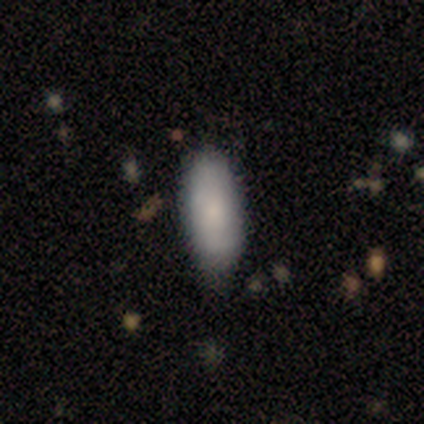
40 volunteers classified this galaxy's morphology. smooth-or-featured: smooth: 80% | featured or disk: 18% | star or artifact: 2%
  how-rounded: in between: 88% | cigar-shaped: 12% | round: 0%
  merging: none: 54% | minor disturbance: 18% | merger: 5% | major disturbance: 0%